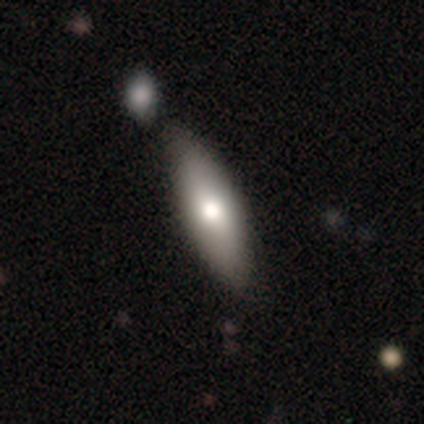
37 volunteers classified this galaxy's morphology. Volunteers were most divided on "how rounded": in between: 64%, cigar-shaped: 29%, round: 7%. Remaining: smooth or featured — smooth (76%); merging — none (47%).